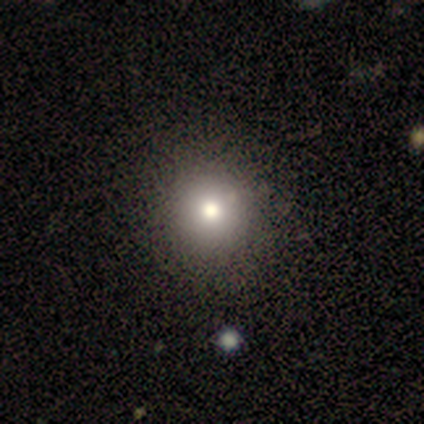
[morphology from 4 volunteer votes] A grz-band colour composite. It shows a smooth galaxy with no disk features (75%) that is round (100%). Merging: none (100%).